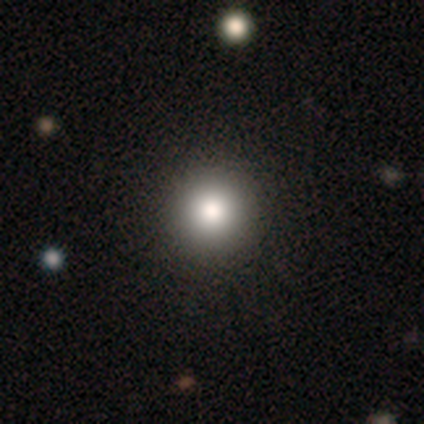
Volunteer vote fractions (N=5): Smooth or featured: smooth — 80% (star or artifact — 20%)
How rounded: round — 75% (in between — 25%)
Merging: none — 100%